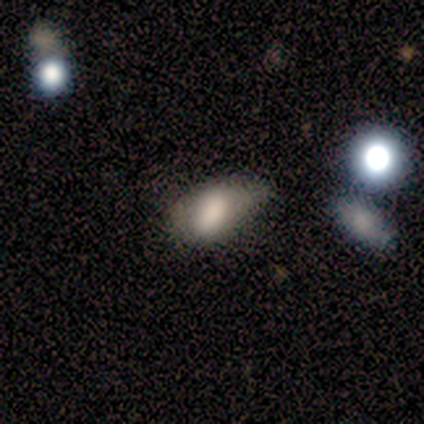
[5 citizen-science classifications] Q: Smooth or featured?
A: smooth (80%); runner-up: featured or disk (20%)
Q: How rounded?
A: in between (75%); runner-up: round (25%)
Q: Merging?
A: minor disturbance (60%); runner-up: none (20%)